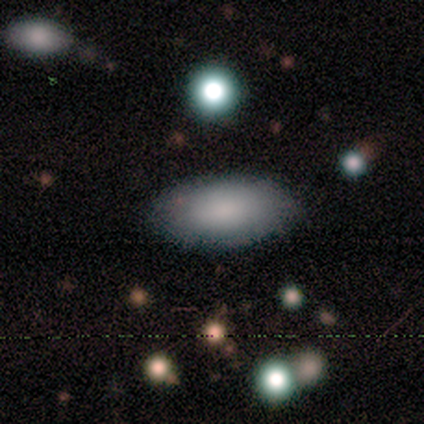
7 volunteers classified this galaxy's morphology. Smooth or featured: smooth — 86% (star or artifact — 14%)
How rounded: in between — 83% (cigar-shaped — 17%)
Merging: none — 83% (minor disturbance — 17%)